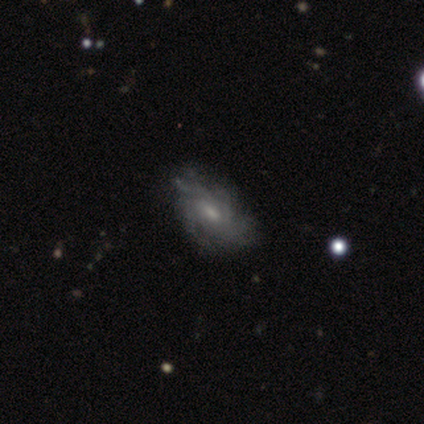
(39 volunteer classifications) Smooth or featured? featured or disk (69%)
Edge-on disk? no (96%)
Bar? no (62%)
Spiral arms? yes (88%)
Spiral winding? tight (57%)
Spiral arm count? can't tell (65%)
Bulge size? small (50%)
Merging? none (57%)